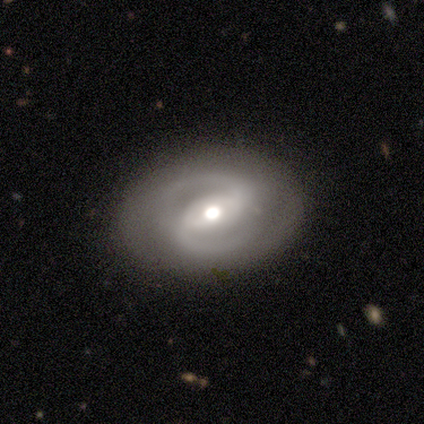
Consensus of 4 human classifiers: Overall: featured or disk (75%). Edge-on disk: no (100%). Bar: strong (100%). Spiral arms: yes (100%). Spiral arm count: 2 (100%). Spiral winding: medium (67%; tight 33%). Bulge size: moderate (100%). Merging: none (67%; minor disturbance 33%).